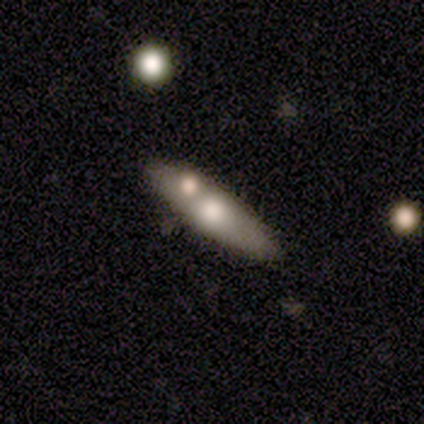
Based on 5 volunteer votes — A featured or disk galaxy (80%) viewed edge-on (100%) with a rounded central bulge (100%).

Vote fractions:
- Smooth or featured? featured or disk: 80% / smooth: 20% / star or artifact: 0%
- Edge-on disk? yes: 100% / no: 0%
- Edge-on bulge? rounded: 100% / boxy: 0% / none: 0%
- Merging? none: 60% / merger: 40% / minor disturbance: 0% / major disturbance: 0%